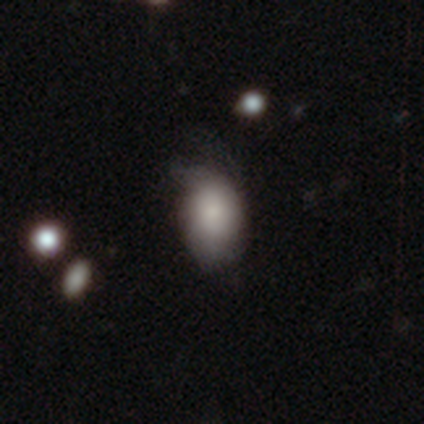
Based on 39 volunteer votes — Morphology: type=smooth (82%); roundness=in between (81%); merging=none (50%).